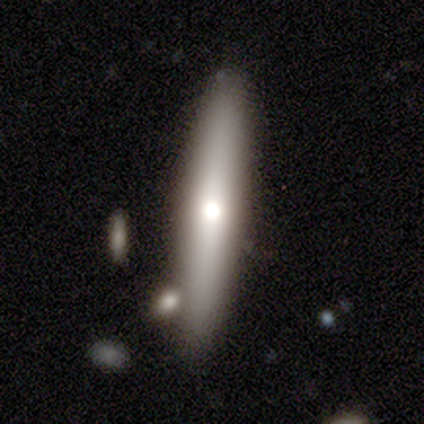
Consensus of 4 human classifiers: A featured or disk galaxy (100%) viewed edge-on (100%) with a rounded central bulge (75%).

Vote fractions:
- Smooth or featured? featured or disk: 100% / smooth: 0% / star or artifact: 0%
- Edge-on disk? yes: 100% / no: 0%
- Edge-on bulge? rounded: 75% / boxy: 25% / none: 0%
- Merging? none: 75% / minor disturbance: 25% / major disturbance: 0% / merger: 0%